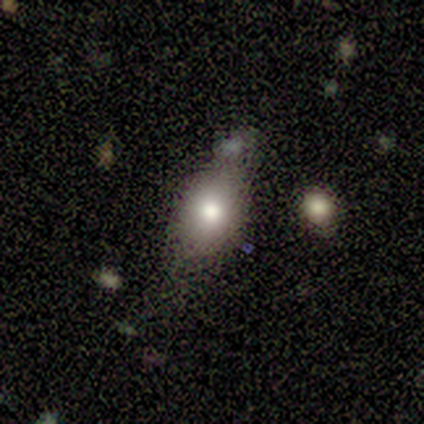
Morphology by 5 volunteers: Smooth or featured? 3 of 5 (60%) said smooth. How rounded? 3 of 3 (100%) said in between. Merging? 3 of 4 (75%) said none.